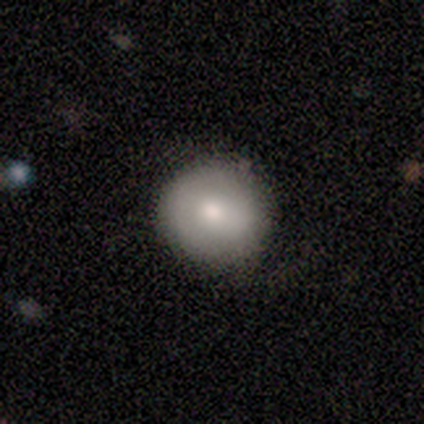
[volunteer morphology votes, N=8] A smooth galaxy with no disk features (62%) that is round (100%).

Vote fractions:
- Smooth or featured? smooth: 62% / featured or disk: 38% / star or artifact: 0%
- How rounded? round: 100% / in between: 0% / cigar-shaped: 0%
- Merging? none: 88% / minor disturbance: 12% / major disturbance: 0% / merger: 0%